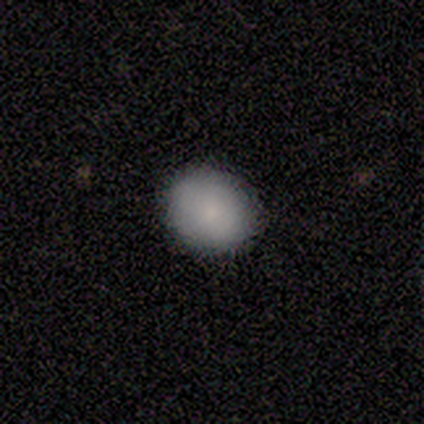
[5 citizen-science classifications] Morphology: type=smooth (60%); roundness=round (67%); merging=none (100%).